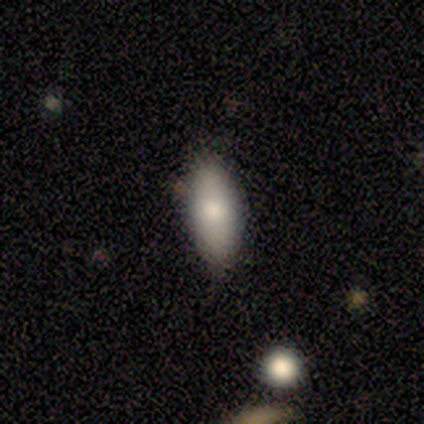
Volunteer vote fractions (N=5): smooth 80%, featured or disk 20%, star or artifact 0%. Down the decision tree: how rounded — in between (75%); merging — none (100%).